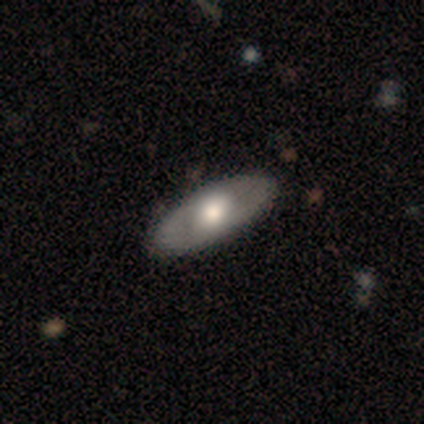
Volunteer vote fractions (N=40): Smooth or featured?
  - featured or disk: 50% *
  - smooth: 48%
  - star or artifact: 2%
Edge-on disk?
  - no: 75% *
  - yes: 25%
Bar?
  - no: 67% *
  - weak: 27%
  - strong: 7%
Spiral arms?
  - no: 73% *
  - yes: 27%
Bulge size?
  - large: 47% * (tied)
  - moderate: 47% * (tied)
  - small: 7%
  - dominant: 0%
  - none: 0%
Merging?
  - none: 69% *
  - minor disturbance: 8%
  - major disturbance: 0%
  - merger: 0%